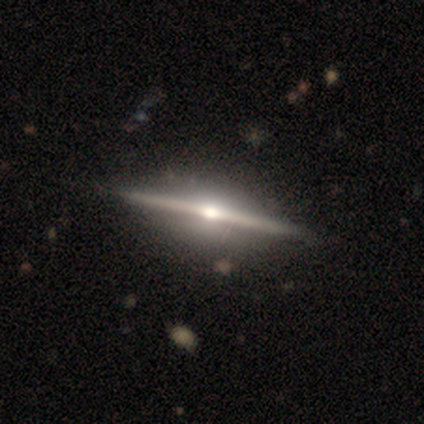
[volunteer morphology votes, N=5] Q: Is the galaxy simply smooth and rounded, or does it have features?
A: featured or disk — 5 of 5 (100%).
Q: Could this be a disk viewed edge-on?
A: yes — 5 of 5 (100%).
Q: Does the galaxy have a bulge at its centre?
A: rounded — 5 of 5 (100%).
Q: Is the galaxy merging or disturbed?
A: none — 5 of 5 (100%).